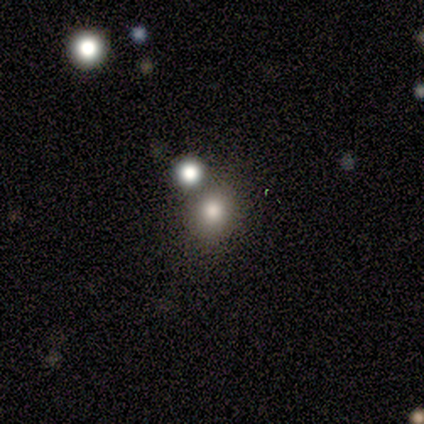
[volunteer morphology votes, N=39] Smooth or featured? smooth (87%)
How rounded? round (91%)
Merging? none (53%)